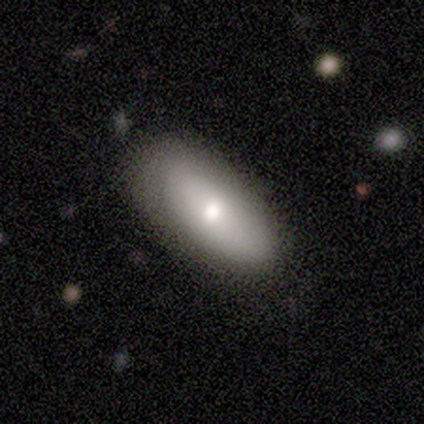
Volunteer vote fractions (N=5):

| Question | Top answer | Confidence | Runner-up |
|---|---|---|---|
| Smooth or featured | smooth | 80% | featured or disk (20%) |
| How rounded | in between | 75% | round (25%) |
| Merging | none | 100% | — |